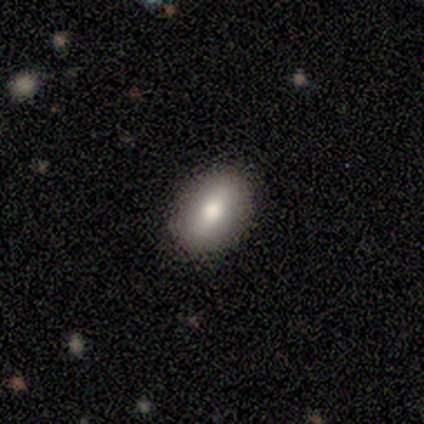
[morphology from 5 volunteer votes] smooth-or-featured: smooth: 80% | featured or disk: 20% | star or artifact: 0%
  how-rounded: in between: 100% | round: 0% | cigar-shaped: 0%
  merging: none: 100% | minor disturbance: 0% | major disturbance: 0% | merger: 0%